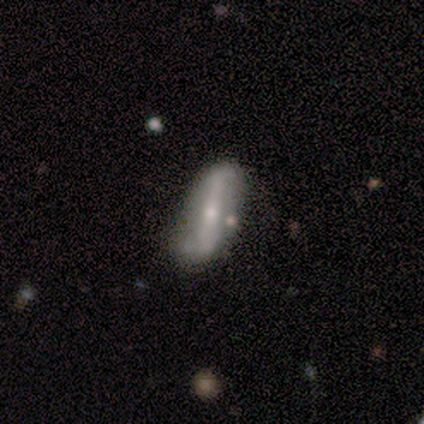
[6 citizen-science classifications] Smooth or featured: featured or disk — 50% (smooth — 33%)
Edge-on disk: no — 100%
Bar: strong — 67% (no — 33%)
Spiral arms: no — 67% (yes — 33%)
Bulge size: small — 100%
Merging: none — 80% (minor disturbance — 20%)